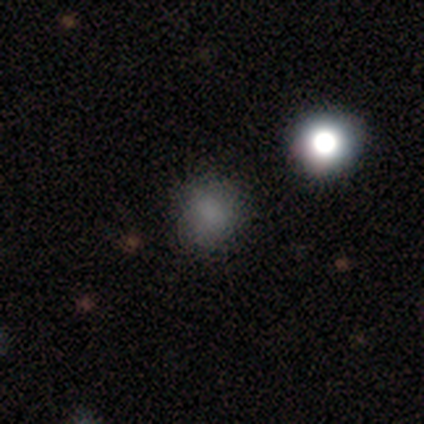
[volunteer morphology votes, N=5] Volunteers were most divided on "merging": none: 75%, merger: 25%, minor disturbance: 0%, major disturbance: 0%. More confident: how rounded — round (100%); smooth or featured — smooth (80%).